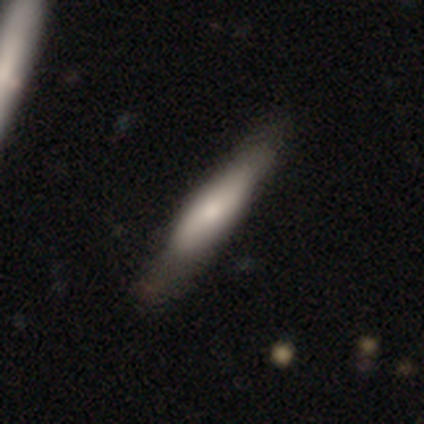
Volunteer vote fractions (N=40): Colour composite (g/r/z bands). It shows a smooth galaxy with no disk features (57%) that is cigar-shaped (65%). Merging: none (45%).